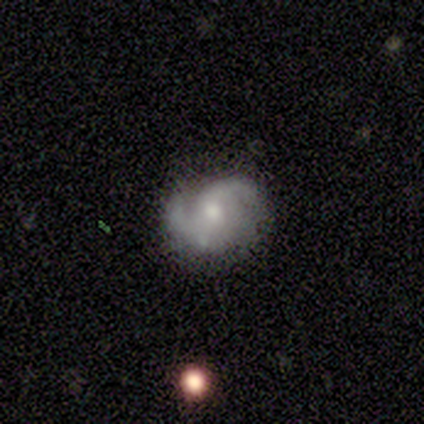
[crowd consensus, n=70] Morphology: type=featured or disk (87%); edge-on=no (100%); bar=no (69%); spiral arms=yes (100%); winding=medium (48%); arm count=2 (87%); bulge=moderate (52%); merging=none (53%).